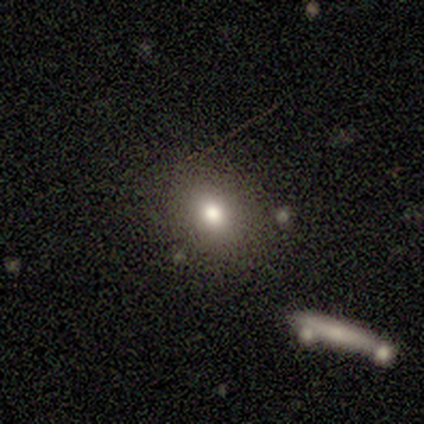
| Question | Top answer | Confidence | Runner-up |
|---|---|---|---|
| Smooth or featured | smooth | 75% | star or artifact (25%) |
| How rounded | in between | 67% | round (33%) |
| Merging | none | 100% | — |